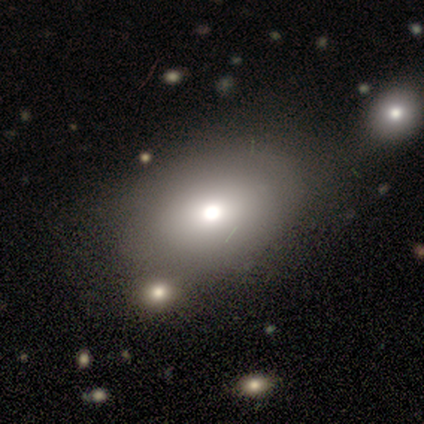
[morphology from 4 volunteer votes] smooth-or-featured: smooth: 75% | featured or disk: 25% | star or artifact: 0%
  how-rounded: in between: 67% | round: 33% | cigar-shaped: 0%
  merging: merger: 50% | none: 25% | minor disturbance: 25% | major disturbance: 0%